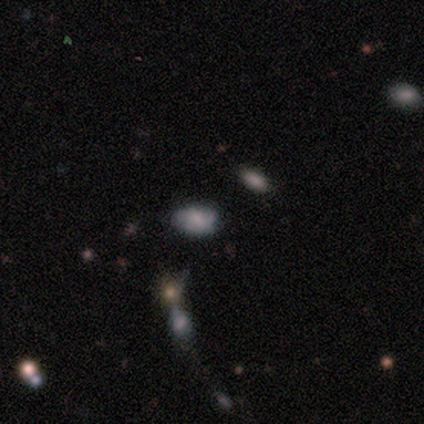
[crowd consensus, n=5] smooth_or_featured: smooth (p=0.60) [alt: featured or disk p=0.20]
how_rounded: in between (p=1.00)
merging: none (p=1.00)